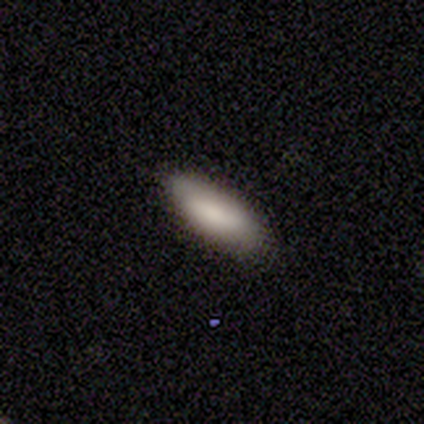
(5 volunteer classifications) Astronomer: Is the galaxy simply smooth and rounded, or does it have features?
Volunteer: smooth — 80%.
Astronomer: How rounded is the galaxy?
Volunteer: in between — 100%.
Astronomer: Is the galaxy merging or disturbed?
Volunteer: none — 100%.